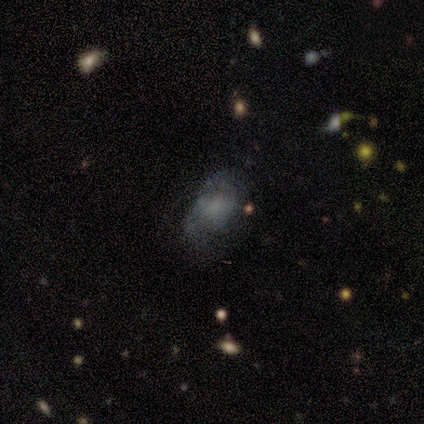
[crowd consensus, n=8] This appears to be a smooth galaxy with no disk features (62%) that is in between round and cigar-shaped (60%). Merging: none (38%, tied with minor disturbance).